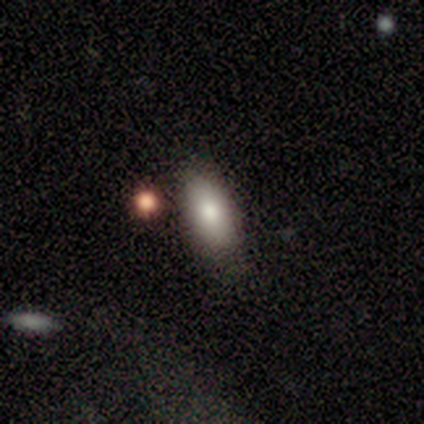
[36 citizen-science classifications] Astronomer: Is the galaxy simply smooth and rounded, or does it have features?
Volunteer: smooth — 81%.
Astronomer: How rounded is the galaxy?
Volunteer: in between — 90%.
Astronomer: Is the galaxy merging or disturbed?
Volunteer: none — 81%.